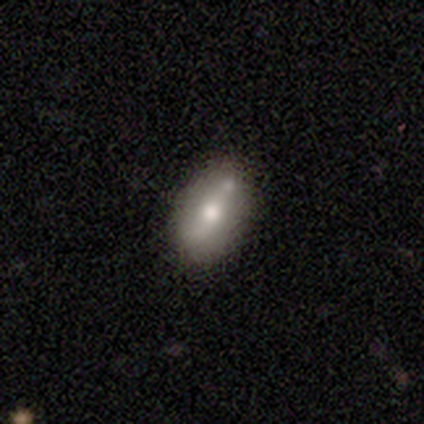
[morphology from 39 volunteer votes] Smooth or featured?
  - smooth: 59% *
  - featured or disk: 26%
  - star or artifact: 15%
How rounded?
  - in between: 83% *
  - round: 9%
  - cigar-shaped: 9%
Merging?
  - none: 58% *
  - minor disturbance: 27%
  - merger: 12%
  - major disturbance: 3%